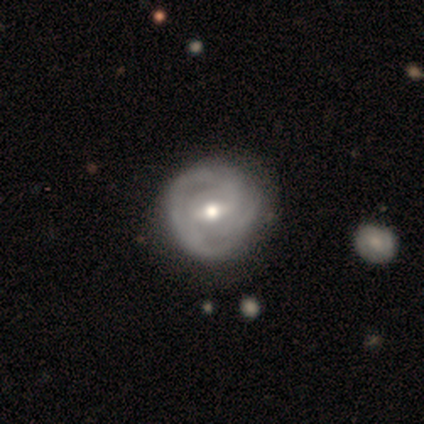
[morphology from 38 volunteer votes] Smooth or featured? featured or disk (82%)
Edge-on disk? no (100%)
Bar? weak (74%)
Spiral arms? yes (81%)
Spiral winding? tight (60%)
Spiral arm count? 2 (44%)
Bulge size? moderate (61%)
Merging? none (58%)